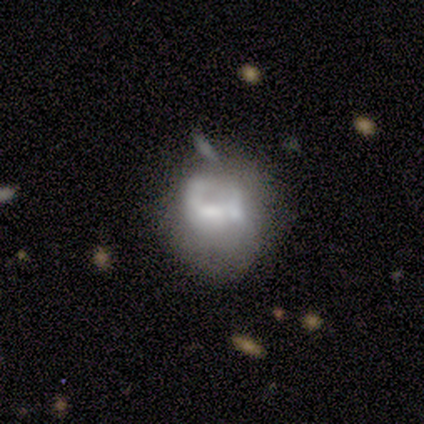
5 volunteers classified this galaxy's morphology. Smooth or featured? featured or disk (60%)
Edge-on disk? no (100%)
Bar? weak (67%)
Spiral arms? no (67%)
Bulge size? moderate (67%)
Merging? major disturbance (40%)